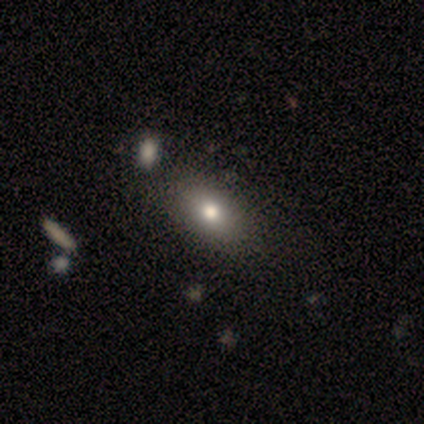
Q: Smooth or featured?
A: smooth (62%); runner-up: featured or disk (20%)
Q: How rounded?
A: in between (88%); runner-up: round (8%)
Q: Merging?
A: none (67%); runner-up: merger (6%)